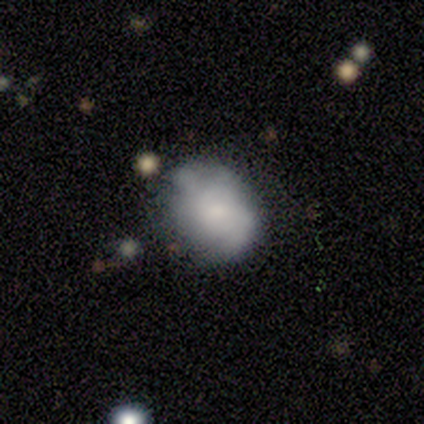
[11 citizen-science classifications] Smooth or featured: smooth — 64% (featured or disk — 27%)
How rounded: in between — 71% (round — 29%)
Merging: none — 70% (major disturbance — 20%)